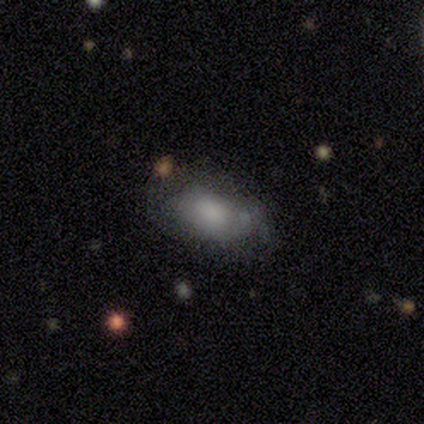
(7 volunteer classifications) smooth-or-featured: smooth: 71% | featured or disk: 29% | star or artifact: 0%
  how-rounded: in between: 100% | round: 0% | cigar-shaped: 0%
  merging: none: 43% (tied) | minor disturbance: 43% (tied) | major disturbance: 14% | merger: 0%